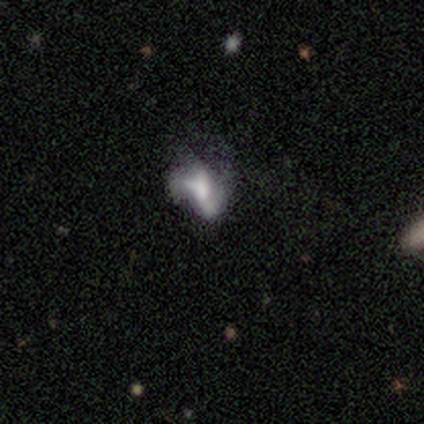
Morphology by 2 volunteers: This appears to be a featured or disk galaxy (100%) with a weak bar (100%), 1 (50%, tied with 2) medium (50%, tied with loose) spiral arms (100%) and a large central bulge (100%). Merging: major disturbance (50%, tied with merger).